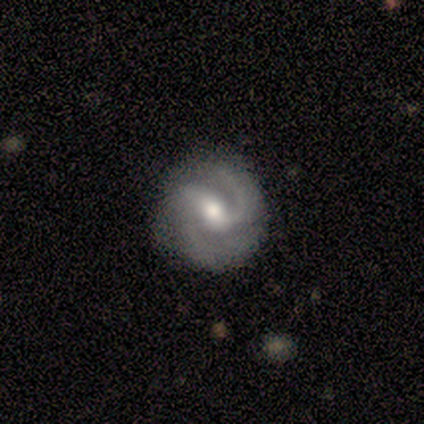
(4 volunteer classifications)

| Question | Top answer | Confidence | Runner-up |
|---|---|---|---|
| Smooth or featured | featured or disk | 100% | — |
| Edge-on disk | no | 100% | — |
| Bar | weak | 50% | tied: no (50%) |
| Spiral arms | yes | 100% | — |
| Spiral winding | loose | 50% | tight (25%) |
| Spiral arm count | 2 | 50% | tied: 3 (50%) |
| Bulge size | moderate | 50% | tied: small (50%) |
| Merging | none | 100% | — |